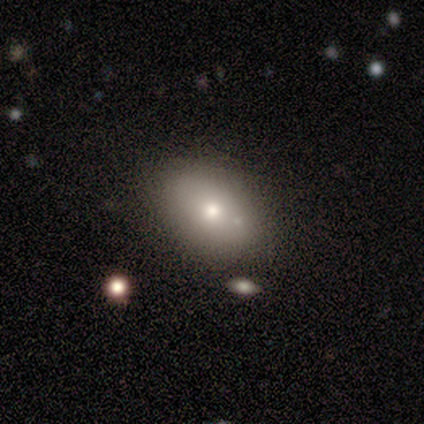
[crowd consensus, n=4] This appears to be a smooth galaxy with no disk features (75%) that is in between round and cigar-shaped (100%). Merging: none (100%).